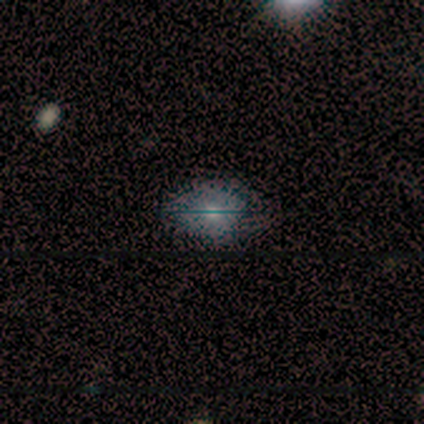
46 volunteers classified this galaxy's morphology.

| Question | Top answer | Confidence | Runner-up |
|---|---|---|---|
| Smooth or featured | smooth | 74% | featured or disk (17%) |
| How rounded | in between | 88% | round (12%) |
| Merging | none | 67% | minor disturbance (24%) |